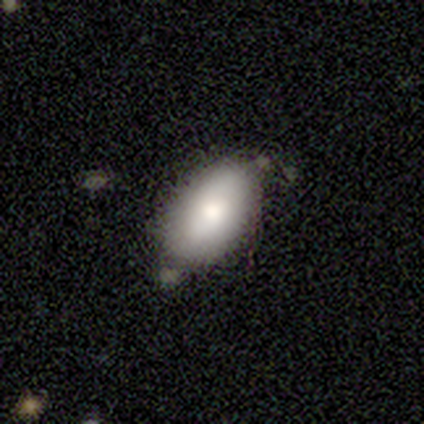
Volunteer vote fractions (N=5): A smooth galaxy with no disk features (80%) that is in between round and cigar-shaped (100%).

Vote fractions:
- Smooth or featured? smooth: 80% / star or artifact: 20% / featured or disk: 0%
- How rounded? in between: 100% / round: 0% / cigar-shaped: 0%
- Merging? none: 75% / minor disturbance: 25% / major disturbance: 0% / merger: 0%